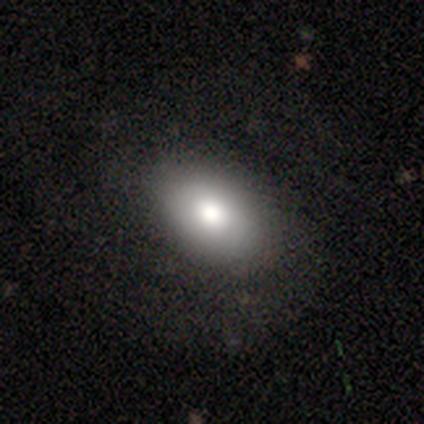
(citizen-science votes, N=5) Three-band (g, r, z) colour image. It shows a smooth galaxy with no disk features (100%) that is in between round and cigar-shaped (80%). Merging: none (60%).